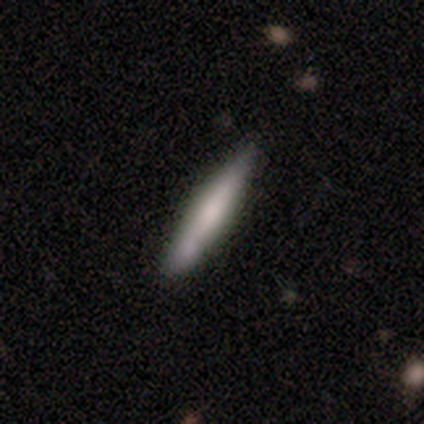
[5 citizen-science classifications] smooth 100%, featured or disk 0%, star or artifact 0%. Down the decision tree: how rounded — cigar-shaped (100%); merging — none (60%).